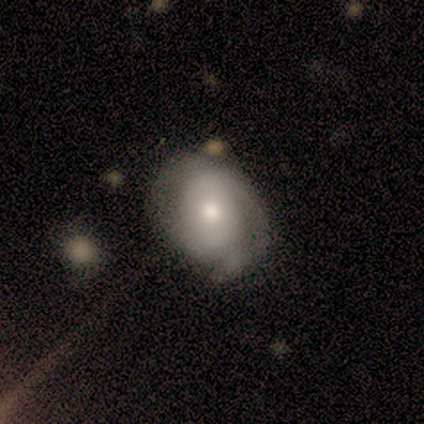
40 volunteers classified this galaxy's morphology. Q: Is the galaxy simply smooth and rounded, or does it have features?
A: featured or disk — 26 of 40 (65%).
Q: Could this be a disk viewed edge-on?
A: no — 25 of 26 (96%).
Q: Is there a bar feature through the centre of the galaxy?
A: no — 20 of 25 (80%).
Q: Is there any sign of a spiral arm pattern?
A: yes — 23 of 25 (92%).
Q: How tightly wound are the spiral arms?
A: tight — 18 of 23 (78%).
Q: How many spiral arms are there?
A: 1 — 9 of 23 (39%).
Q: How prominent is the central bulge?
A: moderate — 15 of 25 (60%).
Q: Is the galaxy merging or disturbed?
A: none — 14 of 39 (36%).